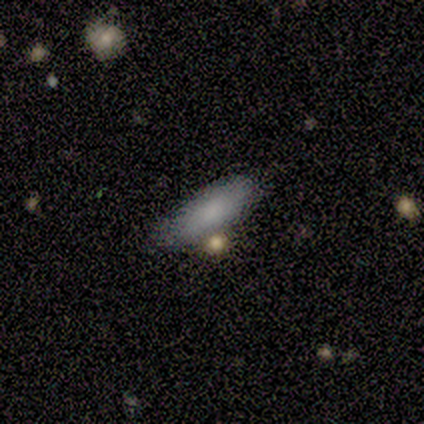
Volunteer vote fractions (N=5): A smooth galaxy with no disk features (80%) that is cigar-shaped (75%).

Vote fractions:
- Smooth or featured? smooth: 80% / star or artifact: 20% / featured or disk: 0%
- How rounded? cigar-shaped: 75% / in between: 25% / round: 0%
- Merging? none: 75% / minor disturbance: 25% / major disturbance: 0% / merger: 0%